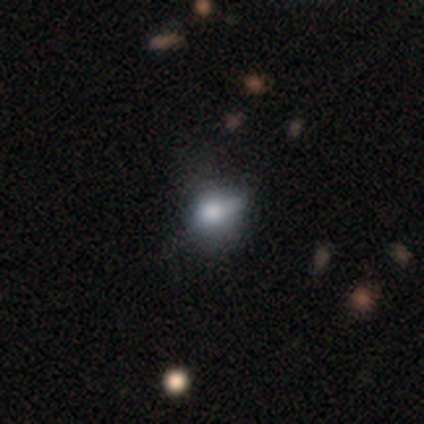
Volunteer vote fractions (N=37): Q: Smooth or featured?
A: smooth (70%); runner-up: featured or disk (19%)
Q: How rounded?
A: in between (54%); runner-up: round (46%)
Q: Merging?
A: none (61%); runner-up: minor disturbance (24%)